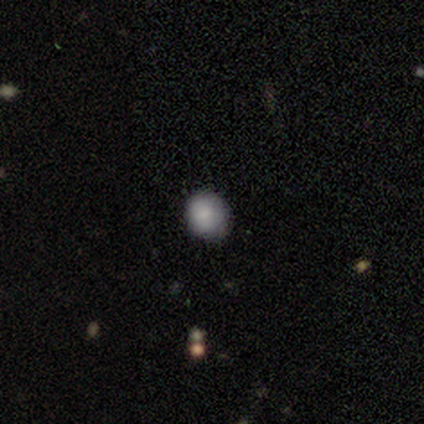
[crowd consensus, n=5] Volunteers were most divided on "merging": none: 75%, minor disturbance: 25%, major disturbance: 0%, merger: 0%. More confident: how rounded — round (100%); smooth or featured — smooth (80%).